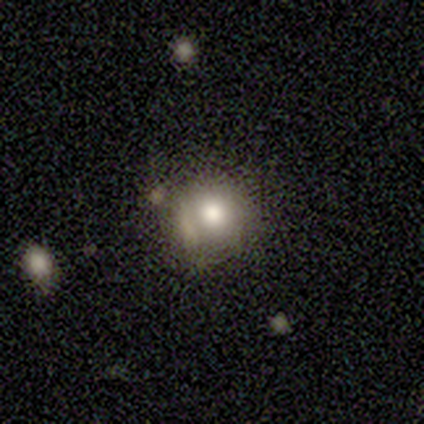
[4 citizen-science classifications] This appears to be a smooth galaxy with no disk features (100%) that is round (100%). Merging: none (50%, tied with minor disturbance).